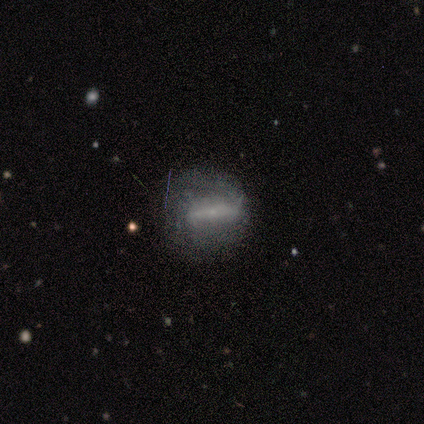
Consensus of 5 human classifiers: Overall: smooth (60%; featured or disk 20%). How rounded: round (67%; in between 33%). Merging: none (50%; minor disturbance 25%).